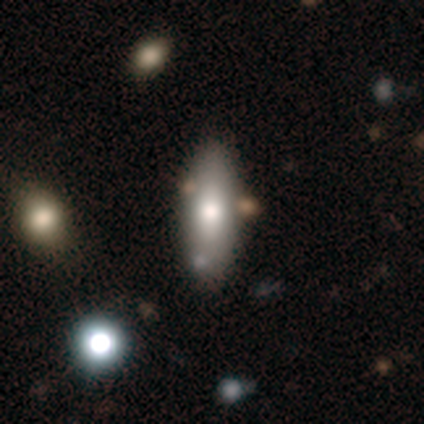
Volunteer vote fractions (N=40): A smooth galaxy with no disk features (78%) that is in between round and cigar-shaped (61%).

Vote fractions:
- Smooth or featured? smooth: 78% / featured or disk: 18% / star or artifact: 5%
- How rounded? in between: 61% / cigar-shaped: 39% / round: 0%
- Merging? none: 66% / merger: 11% / minor disturbance: 3% / major disturbance: 0%